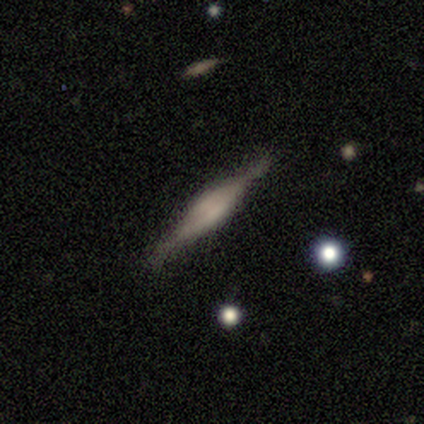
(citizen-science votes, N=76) Smooth or featured: featured or disk — 78% (smooth — 20%)
Edge-on disk: yes — 95% (no — 5%)
Edge-on bulge: rounded — 59% (boxy — 36%)
Merging: none — 82% (minor disturbance — 12%)